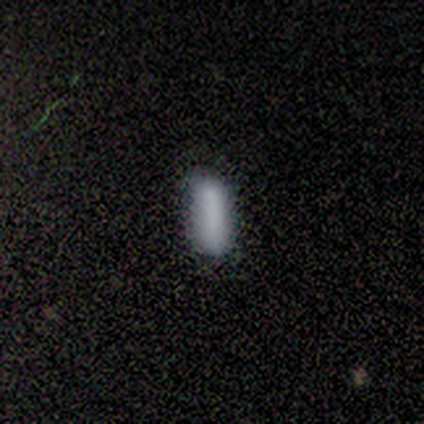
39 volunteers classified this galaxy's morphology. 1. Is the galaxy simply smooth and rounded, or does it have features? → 85% smooth, 10% featured or disk, 5% star or artifact.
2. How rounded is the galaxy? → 64% cigar-shaped, 36% in between, 0% round.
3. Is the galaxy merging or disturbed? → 78% none, 16% minor disturbance, 5% major disturbance, 0% merger.